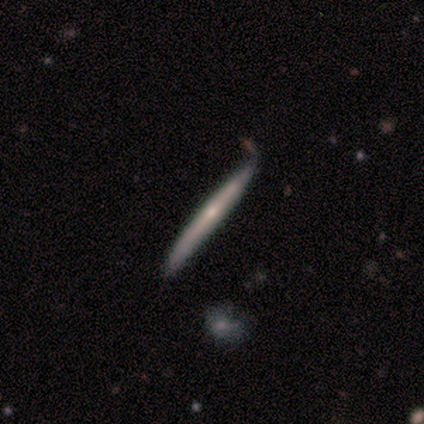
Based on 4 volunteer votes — smooth 100%, featured or disk 0%, star or artifact 0%. Down the decision tree: how rounded — cigar-shaped (100%); merging — none (100%).